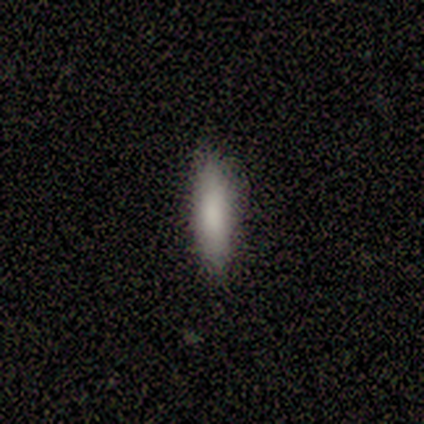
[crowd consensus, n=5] Morphology: type=smooth (100%); roundness=cigar-shaped (80%); merging=none (100%).